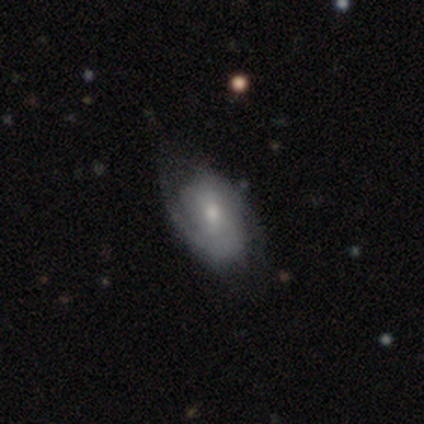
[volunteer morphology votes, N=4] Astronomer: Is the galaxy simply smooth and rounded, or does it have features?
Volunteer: featured or disk — 100%.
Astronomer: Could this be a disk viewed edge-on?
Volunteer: no — 100%.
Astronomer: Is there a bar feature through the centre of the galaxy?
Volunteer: no — 75%.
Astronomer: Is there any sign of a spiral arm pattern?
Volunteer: yes — 100%.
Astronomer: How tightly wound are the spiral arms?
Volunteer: tight — 75%.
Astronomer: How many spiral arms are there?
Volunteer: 2 — 50%, tied with can't tell at 50%.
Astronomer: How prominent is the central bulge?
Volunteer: small — 75%.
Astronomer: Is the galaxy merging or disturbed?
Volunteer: none — 100%.